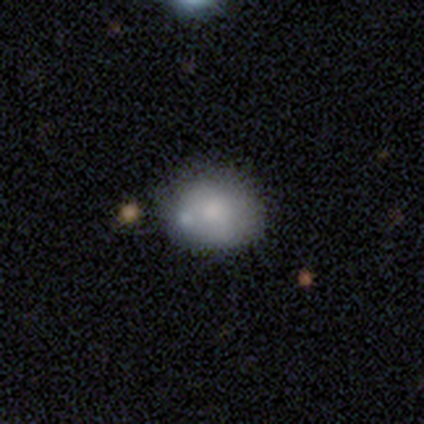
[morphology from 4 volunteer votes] smooth_or_featured: smooth (p=1.00)
how_rounded: in between (p=0.75) [alt: round p=0.25]
merging: none (p=0.75) [alt: merger p=0.25]